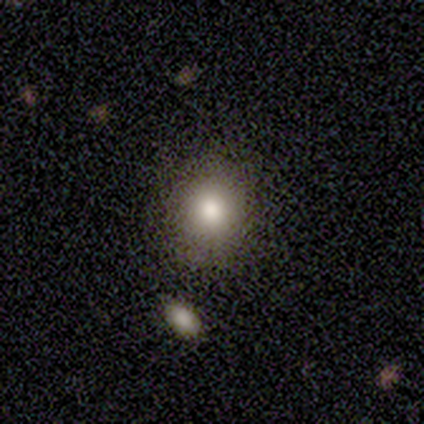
A smooth galaxy with no disk features (80%) that is round (50%, tied with in between). Merging: none (100%).